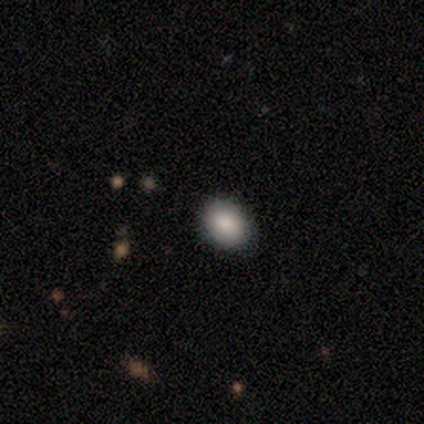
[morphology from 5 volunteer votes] smooth-or-featured: smooth: 100% | featured or disk: 0% | star or artifact: 0%
  how-rounded: round: 60% | in between: 40% | cigar-shaped: 0%
  merging: none: 60% | minor disturbance: 40% | major disturbance: 0% | merger: 0%